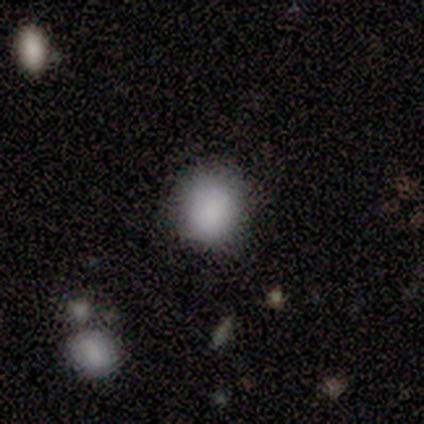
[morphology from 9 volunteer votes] smooth-or-featured: smooth: 100% | featured or disk: 0% | star or artifact: 0%
  how-rounded: round: 89% | in between: 11% | cigar-shaped: 0%
  merging: none: 89% | minor disturbance: 11% | major disturbance: 0% | merger: 0%